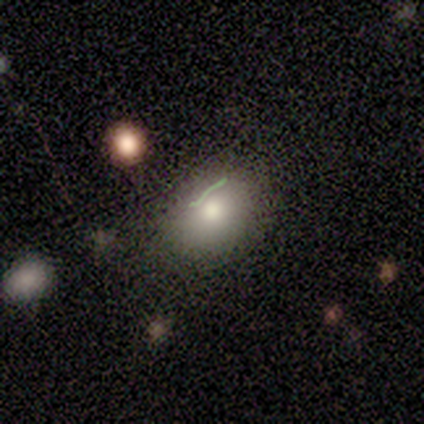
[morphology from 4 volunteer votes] Smooth or featured? 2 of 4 (50%) said smooth. How rounded? 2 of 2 (100%) said in between. Merging? 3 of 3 (100%) said none.